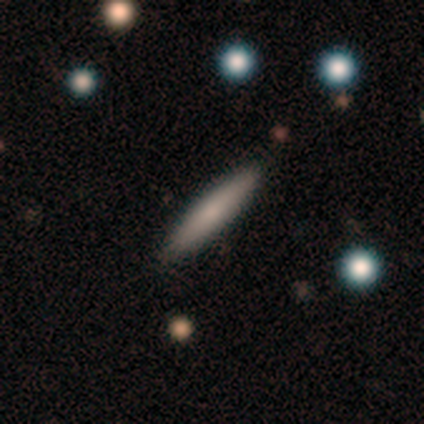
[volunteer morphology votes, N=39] Smooth or featured?
  - smooth: 74% *
  - featured or disk: 21%
  - star or artifact: 5%
How rounded?
  - cigar-shaped: 93% *
  - round: 3%
  - in between: 3%
Merging?
  - none: 95% *
  - minor disturbance: 5%
  - major disturbance: 0%
  - merger: 0%